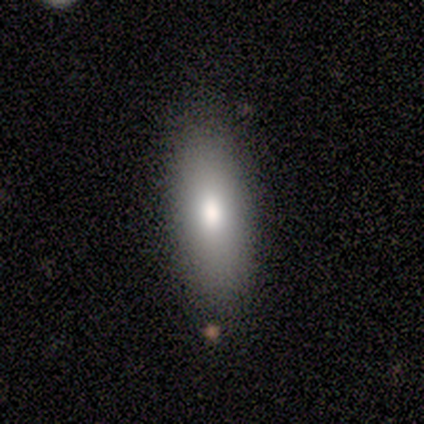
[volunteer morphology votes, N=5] type=smooth (80%); roundness=in between (75%); merging=none (100%).